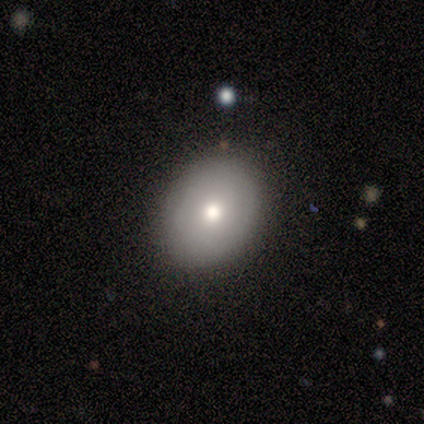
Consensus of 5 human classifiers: Smooth or featured? smooth (80%)
How rounded? round (50%, tied with in between)
Merging? none (100%)